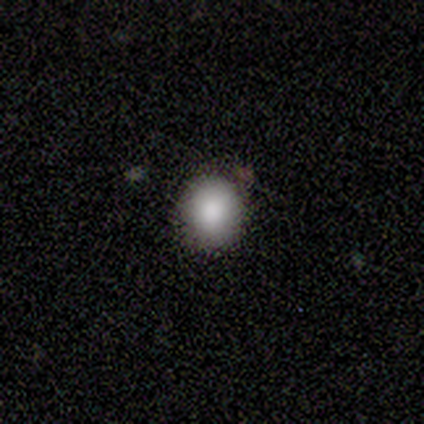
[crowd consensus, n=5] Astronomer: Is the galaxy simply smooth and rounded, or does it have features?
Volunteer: smooth — 100%.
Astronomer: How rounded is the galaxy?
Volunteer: round — 60% (runner-up: in between, 40%).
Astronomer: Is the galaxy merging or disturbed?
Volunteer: none — 100%.